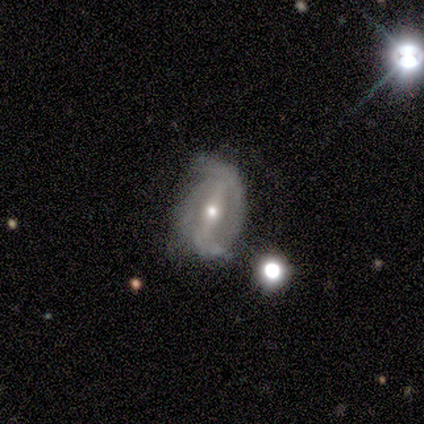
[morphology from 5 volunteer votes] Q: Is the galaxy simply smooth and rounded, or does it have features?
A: featured or disk — 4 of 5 (80%).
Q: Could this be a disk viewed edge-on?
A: no — 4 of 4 (100%).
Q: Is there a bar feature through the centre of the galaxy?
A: weak — 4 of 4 (100%).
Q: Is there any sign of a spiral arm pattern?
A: yes — 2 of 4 (50%, tied with no).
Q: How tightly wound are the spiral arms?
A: medium — 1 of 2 (50%, tied with loose).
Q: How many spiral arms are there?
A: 2 — 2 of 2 (100%).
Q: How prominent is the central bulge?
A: moderate — 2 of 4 (50%, tied with small).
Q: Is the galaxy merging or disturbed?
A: none — 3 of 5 (60%).